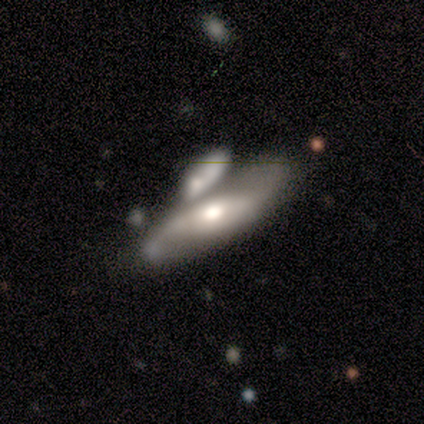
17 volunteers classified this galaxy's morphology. A featured or disk galaxy (71%) with no bar (60%), 2 (78%) loose (44%) spiral arms (90%) and a moderate central bulge (70%).

Vote fractions:
- Smooth or featured? featured or disk: 71% / smooth: 29% / star or artifact: 0%
- Edge-on disk? no: 83% / yes: 17%
- Bar? no: 60% / strong: 30% / weak: 10%
- Spiral arms? yes: 90% / no: 10%
- Spiral winding? loose: 44% / medium: 33% / tight: 22%
- Spiral arm count? 2: 78% / can't tell: 22% / 1: 0% / 3: 0% / 4: 0% / more than 4: 0%
- Bulge size? moderate: 70% / large: 30% / dominant: 0% / small: 0% / none: 0%
- Merging? merger: 76% / none: 12% / major disturbance: 12% / minor disturbance: 0%